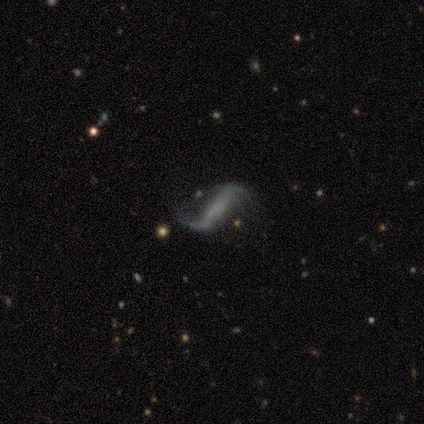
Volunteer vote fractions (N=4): Q: Smooth or featured?
A: featured or disk (50%); runner-up: smooth (25%)
Q: Edge-on disk?
A: no (100%)
Q: Bar?
A: weak (50%); tied with: no (50%)
Q: Spiral arms?
A: yes (100%)
Q: Spiral winding?
A: loose (100%)
Q: Spiral arm count?
A: 2 (100%)
Q: Bulge size?
A: small (50%); tied with: none (50%)
Q: Merging?
A: none (67%); runner-up: major disturbance (33%)